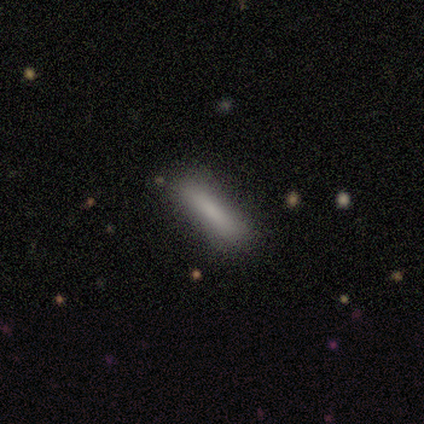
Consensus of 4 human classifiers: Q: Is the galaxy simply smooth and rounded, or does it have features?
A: smooth — 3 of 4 (75%).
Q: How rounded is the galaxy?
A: cigar-shaped — 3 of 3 (100%).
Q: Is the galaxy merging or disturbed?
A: minor disturbance — 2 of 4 (50%).